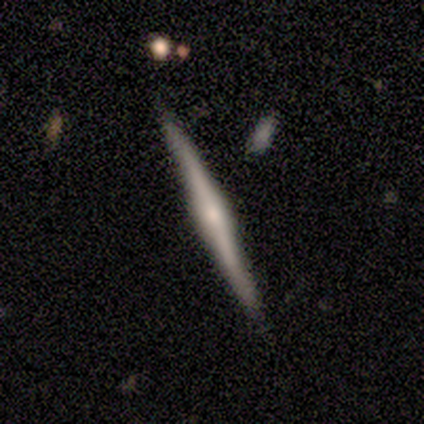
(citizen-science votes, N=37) Volunteers were most divided on "edge-on bulge": rounded: 71%, boxy: 18%, none: 11%. More confident: edge-on disk — yes (100%); merging — none (89%); smooth or featured — featured or disk (76%).